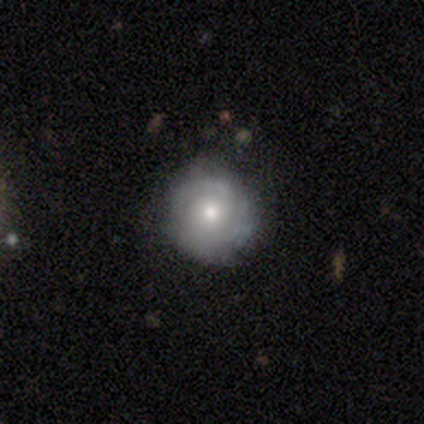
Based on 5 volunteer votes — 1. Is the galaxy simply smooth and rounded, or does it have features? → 60% featured or disk, 40% smooth, 0% star or artifact.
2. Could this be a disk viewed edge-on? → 100% no, 0% yes.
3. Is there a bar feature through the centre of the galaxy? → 100% no, 0% strong, 0% weak.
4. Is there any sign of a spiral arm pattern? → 67% yes, 33% no.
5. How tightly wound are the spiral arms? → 100% tight, 0% medium, 0% loose.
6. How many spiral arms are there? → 50% 2 (tied), 50% can't tell (tied), 0% 1, 0% 3, 0% 4, 0% more than 4.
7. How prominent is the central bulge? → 67% moderate, 33% small, 0% dominant, 0% large, 0% none.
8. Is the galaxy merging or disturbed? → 100% none, 0% minor disturbance, 0% major disturbance, 0% merger.